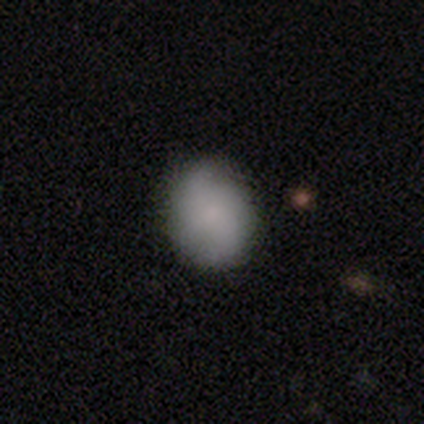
Overall: smooth (72%). How rounded: round (70%; in between 30%). Merging: none (69%).